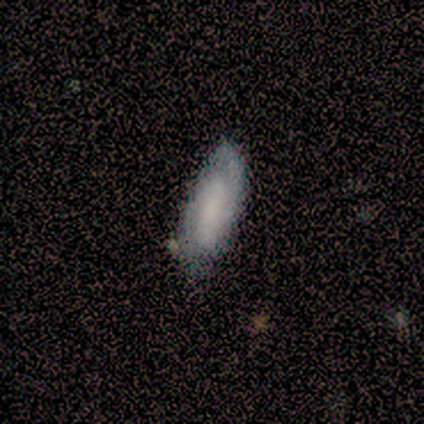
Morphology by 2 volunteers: Smooth or featured: smooth — 100%
How rounded: in between — 50% (tied with cigar-shaped — 50%)
Merging: none — 50% (tied with minor disturbance — 50%)